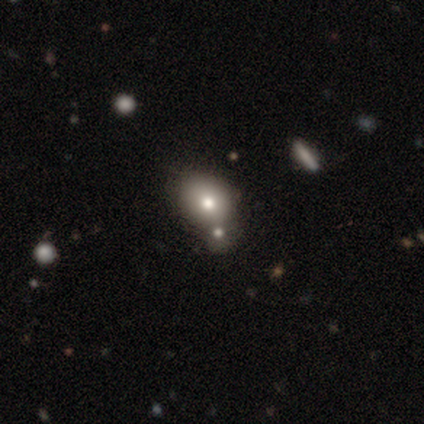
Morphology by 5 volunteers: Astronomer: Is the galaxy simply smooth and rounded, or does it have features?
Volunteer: smooth — 100%.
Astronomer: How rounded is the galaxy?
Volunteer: in between — 60% (runner-up: round, 40%).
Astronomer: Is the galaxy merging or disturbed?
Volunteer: merger — 60% (runner-up: none, 40%).